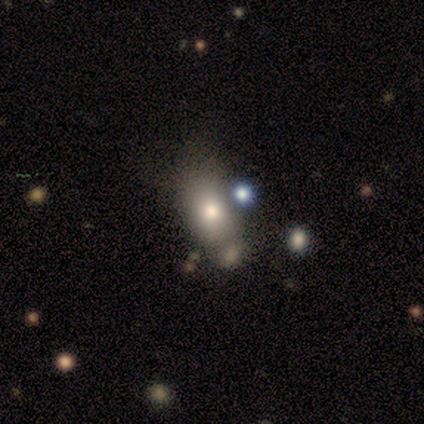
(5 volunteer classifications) Volunteers were most divided on "merging": none: 50%, minor disturbance: 25%, major disturbance: 25%, merger: 0%. More confident: how rounded — in between (100%); smooth or featured — smooth (80%).